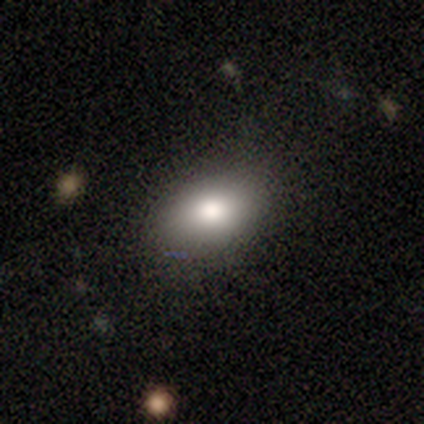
smooth_or_featured: smooth (p=0.80) [alt: featured or disk p=0.20]
how_rounded: round (p=0.50) [tied with: in between p=0.50]
merging: none (p=1.00)